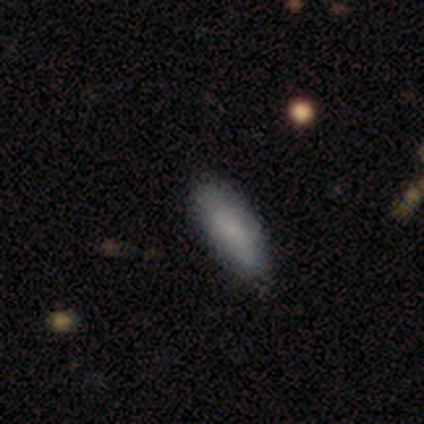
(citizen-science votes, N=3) smooth_or_featured: smooth (p=1.00)
how_rounded: in between (p=0.67) [alt: cigar-shaped p=0.33]
merging: none (p=0.67) [alt: minor disturbance p=0.33]